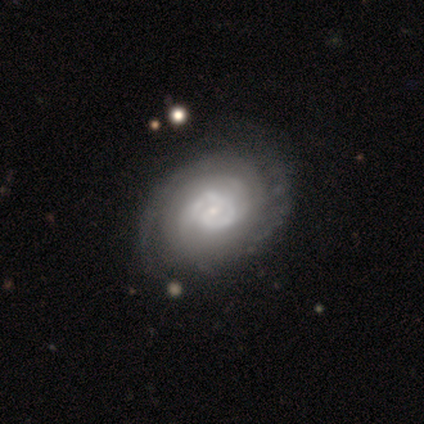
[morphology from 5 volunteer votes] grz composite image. It shows a featured or disk galaxy (100%) with no bar (60%), 1 (40%, tied with 2) tight (60%) spiral arms (100%) and a moderate central bulge (60%). Merging: none (80%).